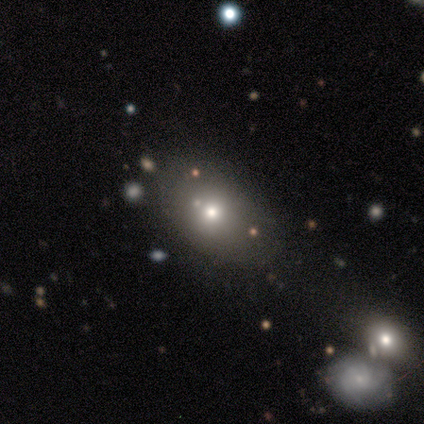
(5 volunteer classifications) Morphology: type=smooth (60%); roundness=in between (100%); merging=none (50%, tied with merger).